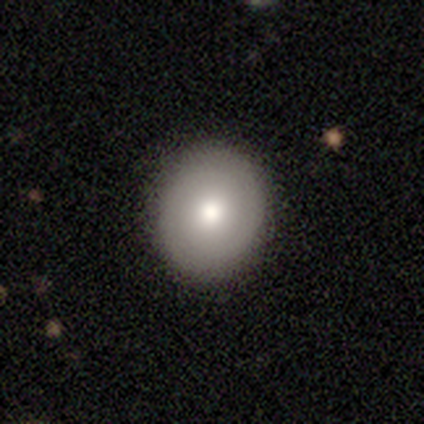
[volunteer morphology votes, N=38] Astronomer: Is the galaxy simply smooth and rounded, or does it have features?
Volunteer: smooth — 76%.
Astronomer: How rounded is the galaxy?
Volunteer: round — 86%.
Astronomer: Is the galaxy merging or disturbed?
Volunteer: none — 89%.